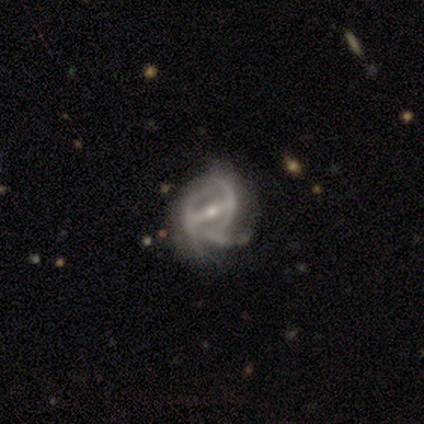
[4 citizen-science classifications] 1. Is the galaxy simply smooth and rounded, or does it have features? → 100% featured or disk, 0% smooth, 0% star or artifact.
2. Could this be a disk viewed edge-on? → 100% no, 0% yes.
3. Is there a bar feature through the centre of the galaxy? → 75% strong, 25% weak, 0% no.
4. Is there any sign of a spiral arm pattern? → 75% yes, 25% no.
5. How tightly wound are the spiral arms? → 100% medium, 0% tight, 0% loose.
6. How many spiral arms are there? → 67% can't tell, 33% 2, 0% 1, 0% 3, 0% 4, 0% more than 4.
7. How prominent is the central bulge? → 75% moderate, 25% small, 0% dominant, 0% large, 0% none.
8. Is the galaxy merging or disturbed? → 50% minor disturbance, 25% none, 25% major disturbance, 0% merger.